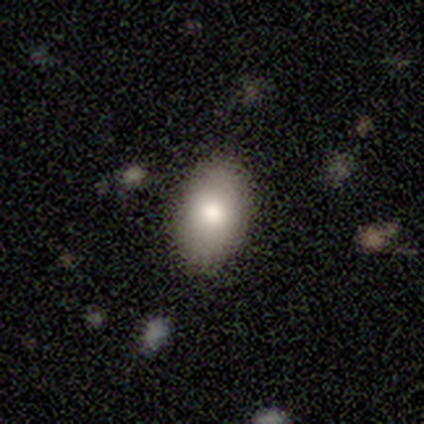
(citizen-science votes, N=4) Morphology: type=smooth (75%); roundness=in between (100%); merging=none (100%).